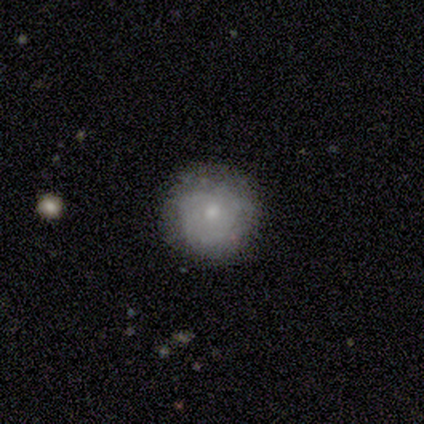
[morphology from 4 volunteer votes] This is clearly a smooth galaxy (100%). How rounded: likely round (75%). Merging: likely none (75%).